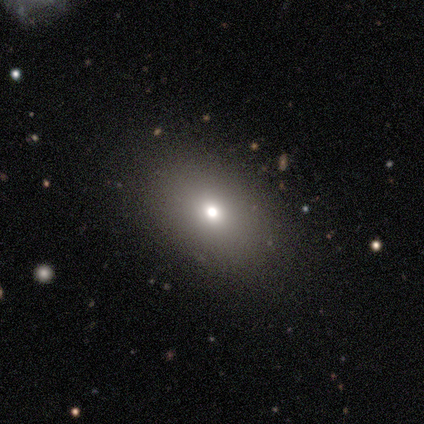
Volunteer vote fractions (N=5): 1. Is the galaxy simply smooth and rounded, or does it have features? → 80% smooth, 20% star or artifact, 0% featured or disk.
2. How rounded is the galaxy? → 100% in between, 0% round, 0% cigar-shaped.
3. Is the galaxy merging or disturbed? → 100% none, 0% minor disturbance, 0% major disturbance, 0% merger.